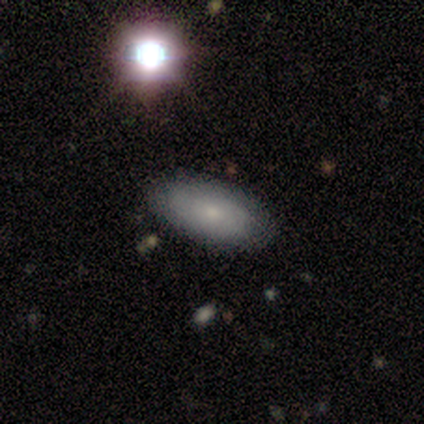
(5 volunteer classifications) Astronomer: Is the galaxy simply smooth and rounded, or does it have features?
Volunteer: smooth — 80%.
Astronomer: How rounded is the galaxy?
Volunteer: in between — 100%.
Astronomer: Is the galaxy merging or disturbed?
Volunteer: none — 100%.